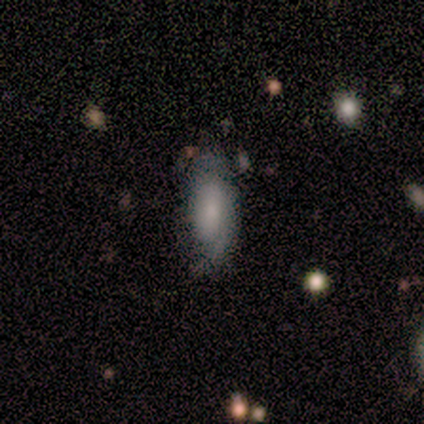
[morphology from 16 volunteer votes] A smooth galaxy with no disk features (81%) that is in between round and cigar-shaped (77%).

Vote fractions:
- Smooth or featured? smooth: 81% / featured or disk: 19% / star or artifact: 0%
- How rounded? in between: 77% / cigar-shaped: 15% / round: 8%
- Merging? none: 81% / major disturbance: 12% / minor disturbance: 6% / merger: 0%